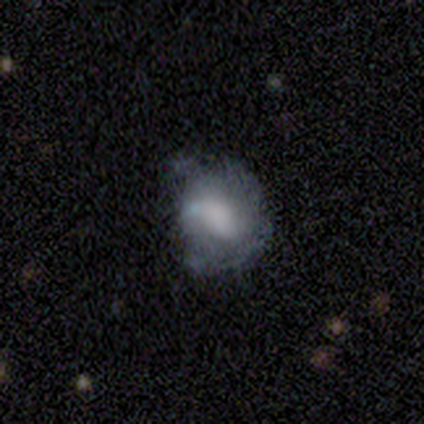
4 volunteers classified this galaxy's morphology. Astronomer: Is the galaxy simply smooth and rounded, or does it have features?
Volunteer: featured or disk — 75%.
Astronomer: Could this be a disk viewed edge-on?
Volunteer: no — 100%.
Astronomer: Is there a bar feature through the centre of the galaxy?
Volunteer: no — 100%.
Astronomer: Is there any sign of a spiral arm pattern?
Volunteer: yes — 67%.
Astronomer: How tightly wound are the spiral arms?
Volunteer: tight — 50%, tied with loose at 50%.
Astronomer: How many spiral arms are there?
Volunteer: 2 — 50%, tied with can't tell at 50%.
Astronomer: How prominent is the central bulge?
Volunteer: large — 33%, tied with small and none at 33%.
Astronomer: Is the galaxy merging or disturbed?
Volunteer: major disturbance — 50%.